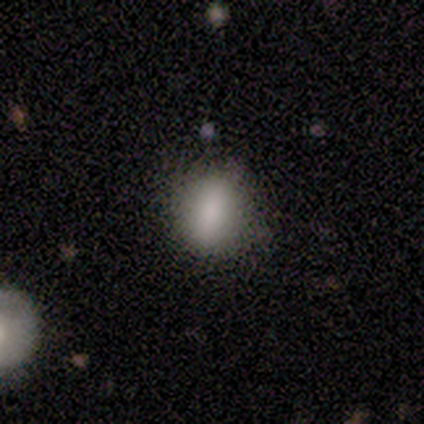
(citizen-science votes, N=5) This is clearly a smooth galaxy (100%). How rounded: clearly in between (80%). Merging: clearly none (100%).